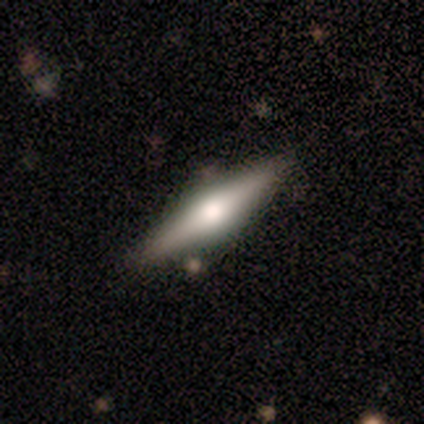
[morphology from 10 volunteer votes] Volunteers were most divided on "smooth or featured": featured or disk: 70%, smooth: 30%, star or artifact: 0%. More confident: edge-on bulge — rounded (100%); merging — none (90%); edge-on disk — yes (86%).